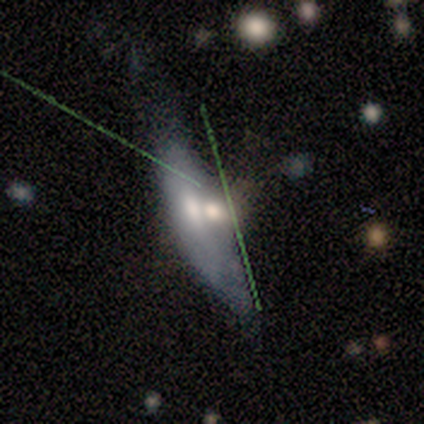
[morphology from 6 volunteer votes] type=smooth (67%); roundness=cigar-shaped (75%); merging=none (50%).